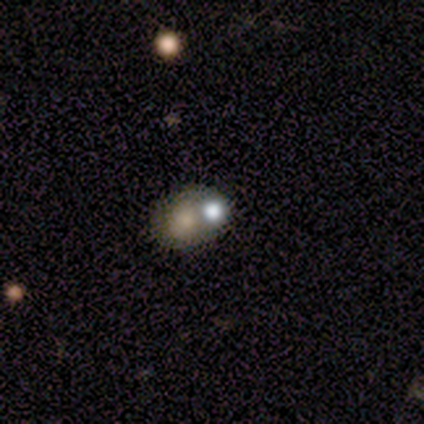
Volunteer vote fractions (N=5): smooth 60%, star or artifact 40%, featured or disk 0%. Down the decision tree: how rounded — round (67%); merging — merger (100%).